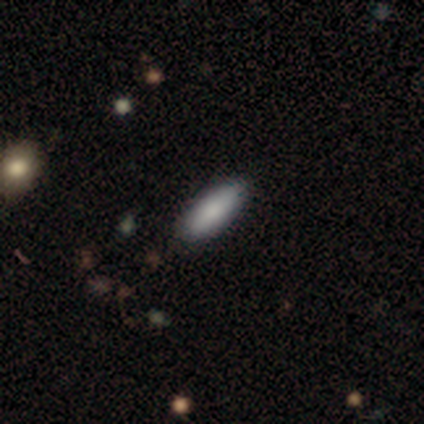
This appears to be a smooth galaxy with no disk features (100%) that is in between round and cigar-shaped (86%). Merging: none (100%).